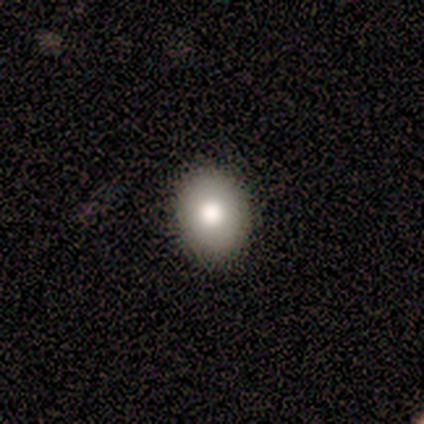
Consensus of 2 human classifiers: A smooth galaxy with no disk features (50%, tied with star or artifact) that is in between round and cigar-shaped (100%).

Vote fractions:
- Smooth or featured? smooth: 50% (tied) / star or artifact: 50% (tied) / featured or disk: 0%
- How rounded? in between: 100% / round: 0% / cigar-shaped: 0%
- Merging? none: 100% / minor disturbance: 0% / major disturbance: 0% / merger: 0%